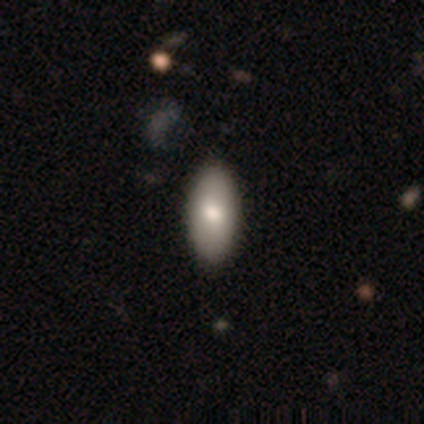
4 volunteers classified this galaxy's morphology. This appears to be a smooth galaxy with no disk features (75%) that is in between round and cigar-shaped (100%). Merging: none (100%).